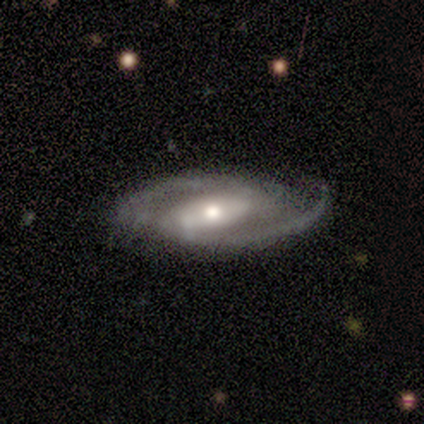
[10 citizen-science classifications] This is clearly a featured or disk galaxy (90%). It is clearly not viewed edge-on (89%). Bar: likely strong (62%). Spiral arm pattern: clearly yes (100%). Spiral arm count: clearly 2 (100%). Spiral winding: likely medium (62%). Central bulge: likely moderate (62%). Merging: clearly none (100%).